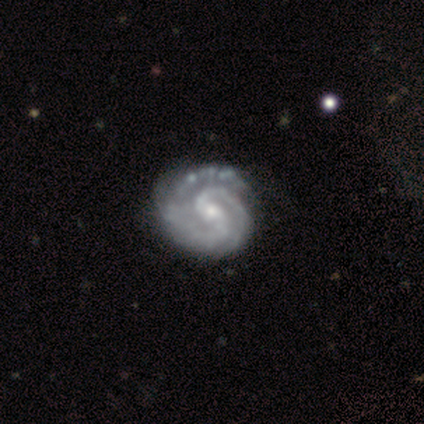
A featured or disk galaxy (100%) with a weak bar (50%), 2 (100%) tight (50%, tied with medium) spiral arms (100%) and a small central bulge (75%).

Vote fractions:
- Smooth or featured? featured or disk: 100% / smooth: 0% / star or artifact: 0%
- Edge-on disk? no: 100% / yes: 0%
- Bar? weak: 50% / strong: 25% / no: 25%
- Spiral arms? yes: 100% / no: 0%
- Spiral winding? tight: 50% (tied) / medium: 50% (tied) / loose: 0%
- Spiral arm count? 2: 100% / 1: 0% / 3: 0% / 4: 0% / more than 4: 0% / can't tell: 0%
- Bulge size? small: 75% / moderate: 25% / dominant: 0% / large: 0% / none: 0%
- Merging? none: 100% / minor disturbance: 0% / major disturbance: 0% / merger: 0%